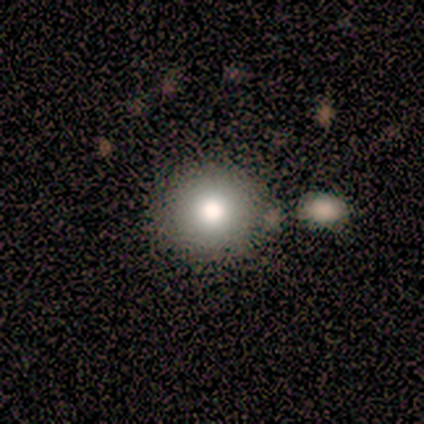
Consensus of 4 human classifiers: smooth 100%, featured or disk 0%, star or artifact 0%. Down the decision tree: how rounded — round (100%); merging — none (75%).